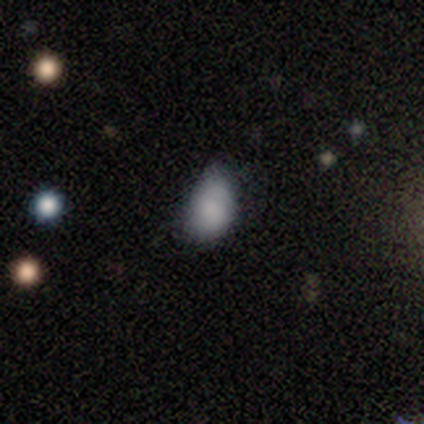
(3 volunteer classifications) smooth-or-featured: smooth: 67% | featured or disk: 33% | star or artifact: 0%
  how-rounded: in between: 100% | round: 0% | cigar-shaped: 0%
  merging: none: 33% (tied) | minor disturbance: 33% (tied) | major disturbance: 33% (tied) | merger: 0%